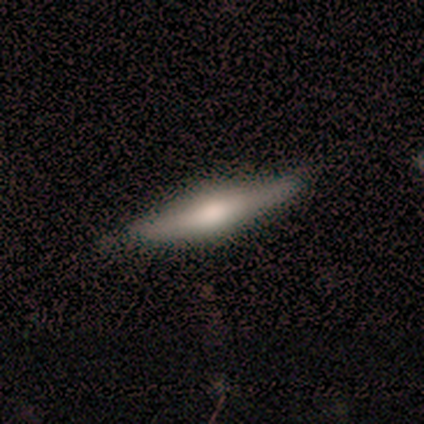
smooth 75%, star or artifact 25%, featured or disk 0%. Down the decision tree: how rounded — cigar-shaped (100%); merging — none (67%).